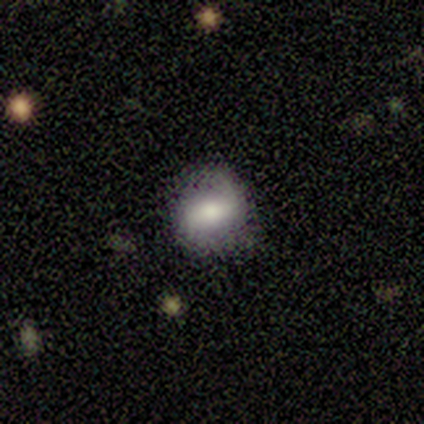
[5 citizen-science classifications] Smooth or featured?
  - featured or disk: 60% *
  - smooth: 40%
  - star or artifact: 0%
Edge-on disk?
  - no: 100% *
  - yes: 0%
Bar?
  - strong: 67% *
  - no: 33%
  - weak: 0%
Spiral arms?
  - yes: 67% *
  - no: 33%
Spiral winding?
  - medium: 50% * (tied)
  - loose: 50% * (tied)
  - tight: 0%
Spiral arm count?
  - 2: 100% *
  - 1: 0%
  - 3: 0%
  - 4: 0%
  - more than 4: 0%
  - can't tell: 0%
Bulge size?
  - dominant: 33% * (tied)
  - moderate: 33% * (tied)
  - none: 33% * (tied)
  - large: 0%
  - small: 0%
Merging?
  - none: 100% *
  - minor disturbance: 0%
  - major disturbance: 0%
  - merger: 0%